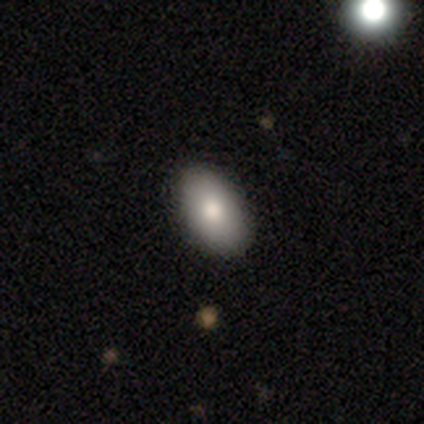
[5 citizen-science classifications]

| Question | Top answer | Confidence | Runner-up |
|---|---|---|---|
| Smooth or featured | smooth | 100% | — |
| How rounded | in between | 80% | round (20%) |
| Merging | none | 100% | — |